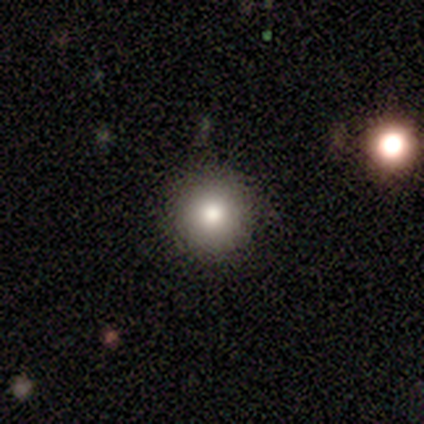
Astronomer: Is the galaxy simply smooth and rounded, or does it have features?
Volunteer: smooth — 100%.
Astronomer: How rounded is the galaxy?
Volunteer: round — 100%.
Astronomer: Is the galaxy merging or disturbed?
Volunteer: none — 83%.